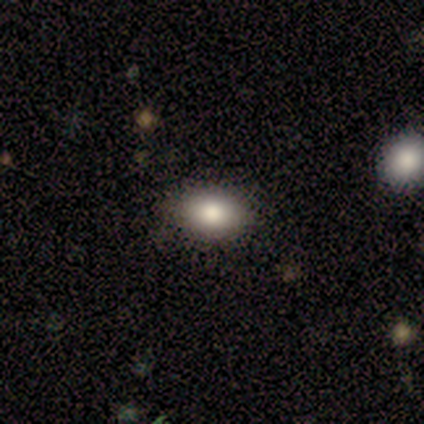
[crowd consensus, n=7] A smooth galaxy with no disk features (86%) that is in between round and cigar-shaped (83%). Merging: none (100%).